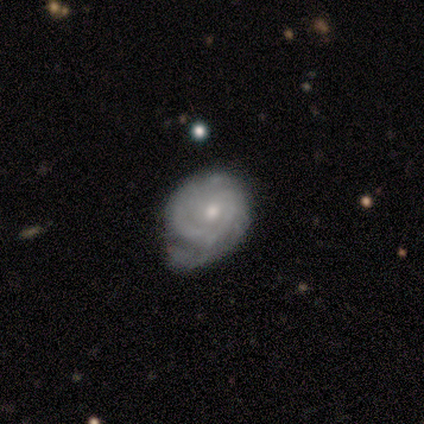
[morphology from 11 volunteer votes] Volunteers were most divided on "spiral winding" (2-way tie): tight: 50%, medium: 50%, loose: 0%; "spiral arm count" (2-way tie): 1: 38%, 2: 38%, can't tell: 25%, 3: 0%, 4: 0%, more than 4: 0%; "bulge size" (2-way tie): moderate: 44%, small: 44%, none: 11%, dominant: 0%, large: 0%. Remaining: edge-on disk — no (100%); bar — no (89%); spiral arms — yes (89%); smooth or featured — featured or disk (82%); merging — none (45%).